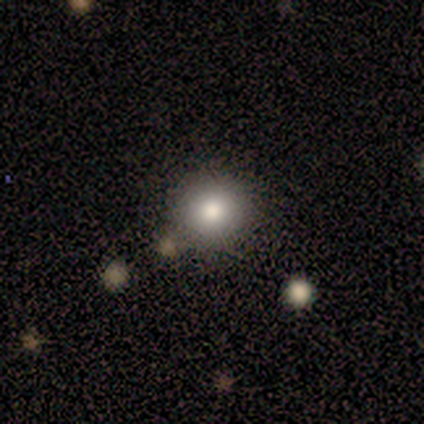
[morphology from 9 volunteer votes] smooth_or_featured: smooth (p=0.89) [alt: featured or disk p=0.11]
how_rounded: round (p=1.00)
merging: none (p=0.67) [alt: minor disturbance p=0.11]